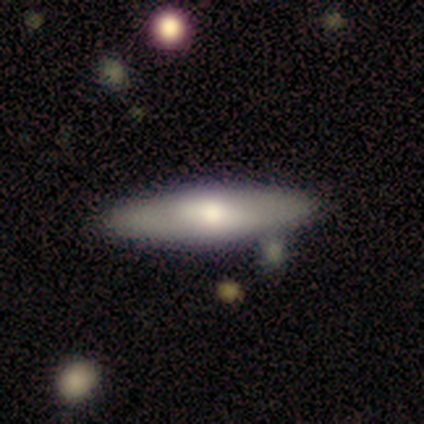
Volunteers were most divided on "smooth or featured": featured or disk: 62%, smooth: 38%, star or artifact: 0%. More confident: merging — none (81%); edge-on bulge — rounded (71%); edge-on disk — yes (70%).